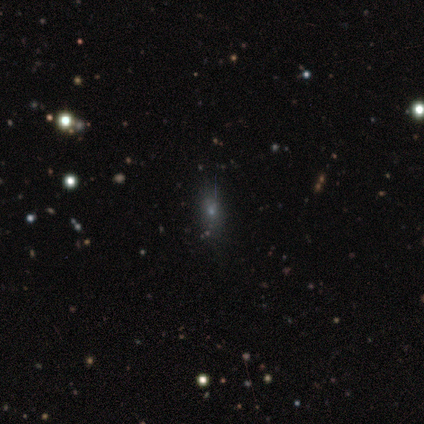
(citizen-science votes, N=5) Morphology: type=smooth (60%); roundness=in between (67%); merging=none (67%).